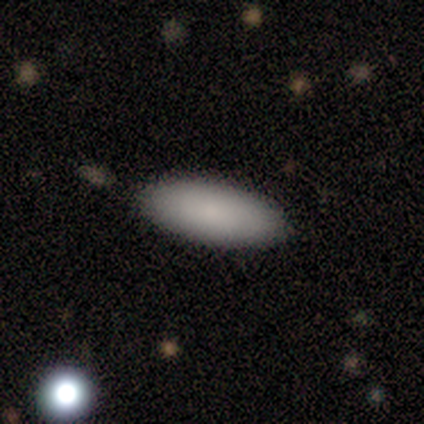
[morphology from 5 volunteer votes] This appears to be a smooth galaxy with no disk features (80%) that is in between round and cigar-shaped (100%). Merging: none (100%).